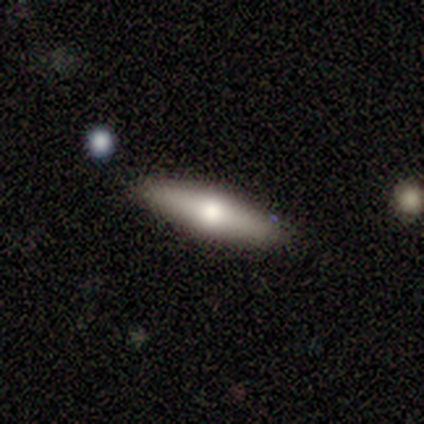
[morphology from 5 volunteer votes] type=smooth (60%); roundness=cigar-shaped (67%); merging=none (100%).